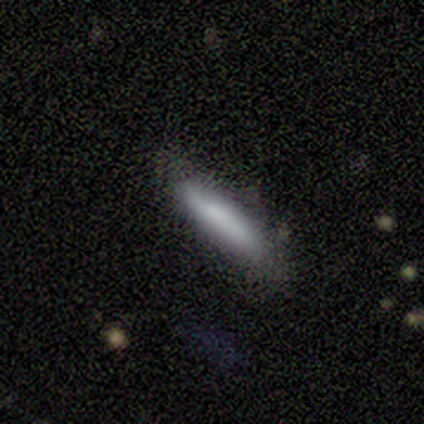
Smooth or featured? smooth (100%)
How rounded? cigar-shaped (80%)
Merging? none (60%)